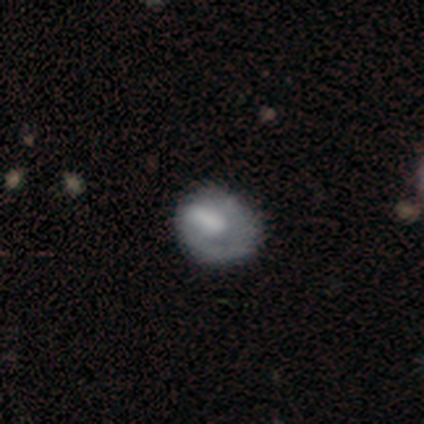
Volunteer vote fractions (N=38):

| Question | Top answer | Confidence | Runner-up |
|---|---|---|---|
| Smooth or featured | featured or disk | 50% | smooth (42%) |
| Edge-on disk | no | 100% | — |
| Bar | no | 53% | weak (37%) |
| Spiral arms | no | 53% | yes (47%) |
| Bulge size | large | 32% | tied: none (32%) |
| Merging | none | 43% | minor disturbance (37%) |